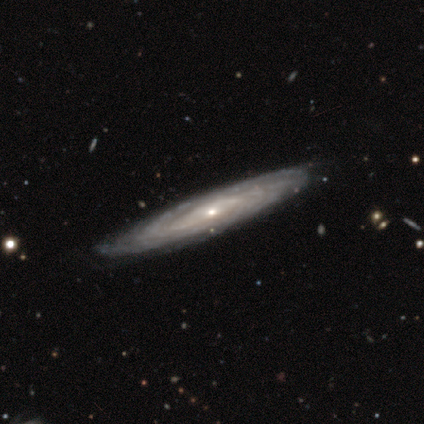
Smooth or featured? 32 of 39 (82%) said featured or disk. Edge-on disk? 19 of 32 (59%) said yes. Edge-on bulge? 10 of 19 (53%) said rounded. Merging? 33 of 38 (87%) said none.